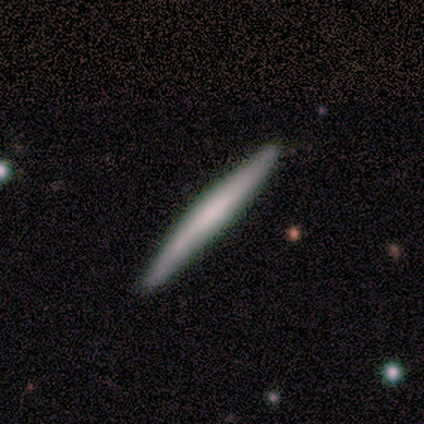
Smooth or featured? smooth (50%)
How rounded? cigar-shaped (100%)
Merging? none (91%)